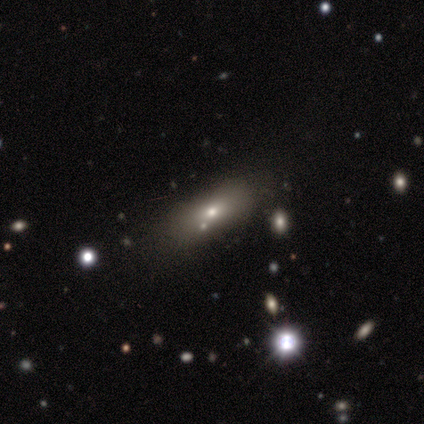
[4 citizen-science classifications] Volunteers were most divided on "how rounded": in between: 75%, cigar-shaped: 25%, round: 0%. More confident: smooth or featured — smooth (100%); merging — minor disturbance (75%).